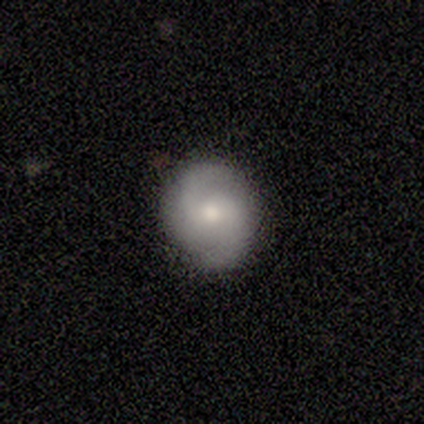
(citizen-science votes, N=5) Overall: featured or disk (60%; smooth 20%). Edge-on disk: no (100%). Bar: no (100%). Spiral arms: yes (100%). Spiral arm count: 2 (100%). Spiral winding: loose (67%; medium 33%). Bulge size: moderate (33%, tied with small and none). Merging: none (100%).